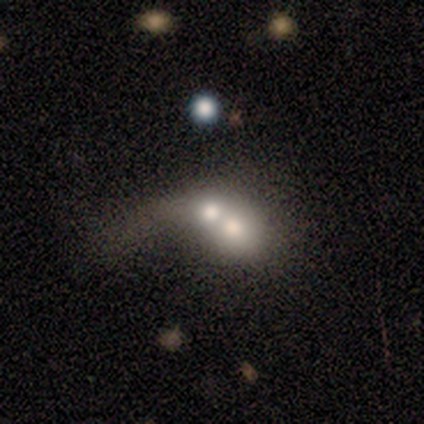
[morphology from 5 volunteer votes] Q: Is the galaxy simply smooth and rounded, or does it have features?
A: featured or disk — 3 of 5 (60%).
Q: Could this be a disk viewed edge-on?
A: no — 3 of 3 (100%).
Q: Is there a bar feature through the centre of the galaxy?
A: no — 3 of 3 (100%).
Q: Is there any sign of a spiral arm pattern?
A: no — 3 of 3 (100%).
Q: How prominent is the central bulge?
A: large — 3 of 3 (100%).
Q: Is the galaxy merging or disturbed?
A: merger — 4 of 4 (100%).